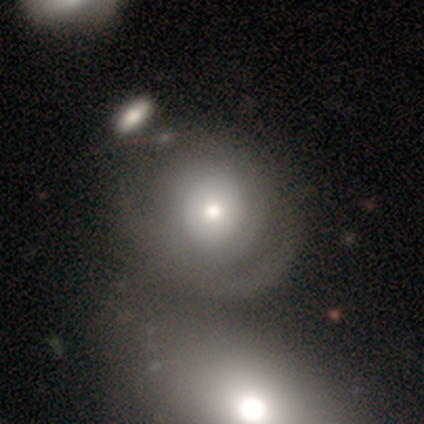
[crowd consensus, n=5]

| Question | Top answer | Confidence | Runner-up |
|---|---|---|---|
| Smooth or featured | smooth | 60% | featured or disk (40%) |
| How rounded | round | 100% | — |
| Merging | minor disturbance | 40% | tied: merger (40%) |